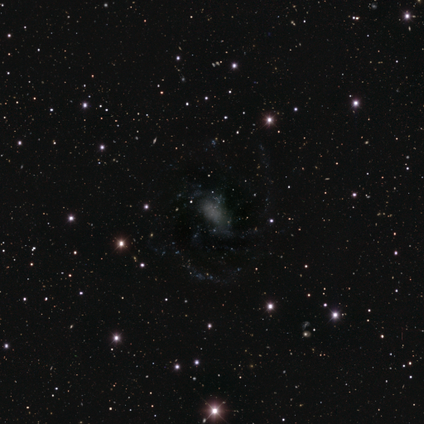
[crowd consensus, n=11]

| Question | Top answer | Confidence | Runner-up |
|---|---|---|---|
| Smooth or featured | featured or disk | 36% | tied: star or artifact (36%) |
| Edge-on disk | no | 100% | — |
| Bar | no | 75% | strong (25%) |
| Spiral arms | yes | 100% | — |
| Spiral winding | tight | 50% | medium (25%) |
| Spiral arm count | can't tell | 75% | 2 (25%) |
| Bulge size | moderate | 50% | small (25%) |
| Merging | none | 71% | minor disturbance (29%) |